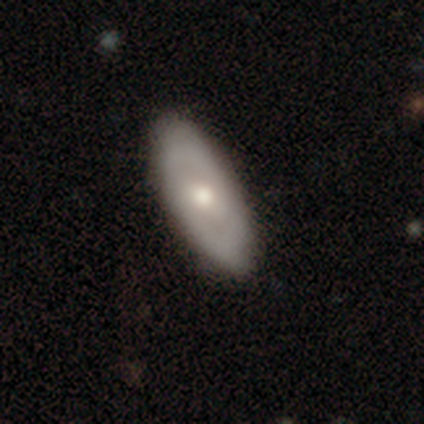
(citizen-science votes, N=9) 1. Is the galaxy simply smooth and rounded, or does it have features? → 67% featured or disk, 22% smooth, 11% star or artifact.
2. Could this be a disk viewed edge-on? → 83% no, 17% yes.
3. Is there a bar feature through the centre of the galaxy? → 80% no, 20% weak, 0% strong.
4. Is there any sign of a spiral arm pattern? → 60% yes, 40% no.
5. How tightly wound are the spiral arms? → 67% tight, 33% medium, 0% loose.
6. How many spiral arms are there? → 67% 2, 33% can't tell, 0% 1, 0% 3, 0% 4, 0% more than 4.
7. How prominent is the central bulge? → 60% moderate, 40% small, 0% dominant, 0% large, 0% none.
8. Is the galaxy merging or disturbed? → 75% none, 25% minor disturbance, 0% major disturbance, 0% merger.